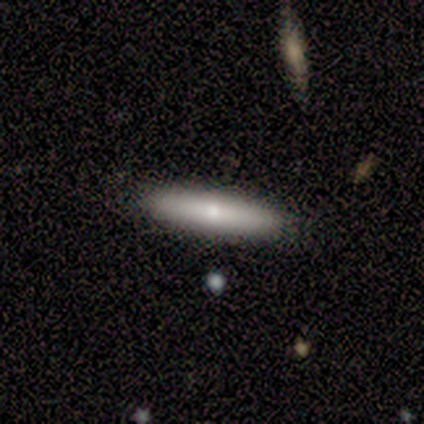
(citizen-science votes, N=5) Morphology: type=smooth (80%); roundness=in between (100%); merging=none (100%).